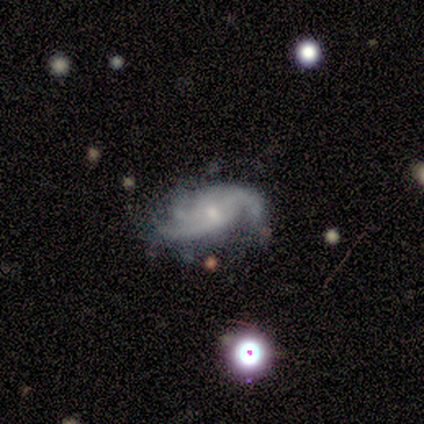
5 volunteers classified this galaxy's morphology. smooth_or_featured: featured or disk (p=0.80) [alt: smooth p=0.20]
disk_edge_on: no (p=1.00)
bar: no (p=1.00)
has_spiral_arms: yes (p=1.00)
spiral_winding: tight (p=0.50) [tied with: medium p=0.50]
spiral_arm_count: 3 (p=0.50) [alt: 2 p=0.25]
bulge_size: small (p=0.75) [alt: moderate p=0.25]
merging: minor disturbance (p=0.60) [alt: none p=0.40]